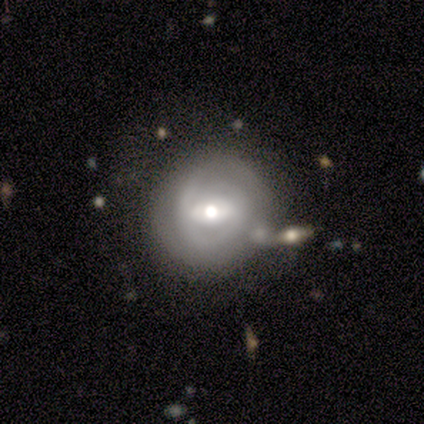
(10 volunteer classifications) Volunteers were most divided on "bar" (2-way tie): weak: 38%, no: 38%, strong: 25%. More confident: bulge size — moderate (100%); smooth or featured — featured or disk (90%); edge-on disk — no (89%); merging — none (78%); spiral arms — no (62%).